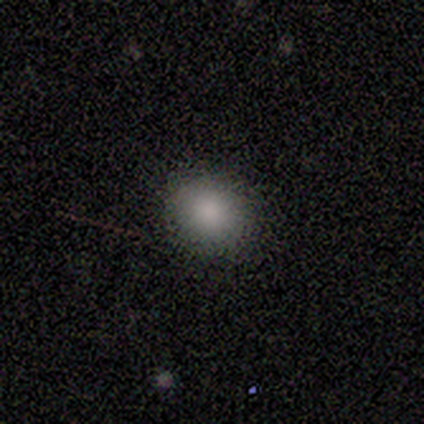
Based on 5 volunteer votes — Smooth or featured: smooth — 100%
How rounded: round — 60% (in between — 40%)
Merging: none — 100%